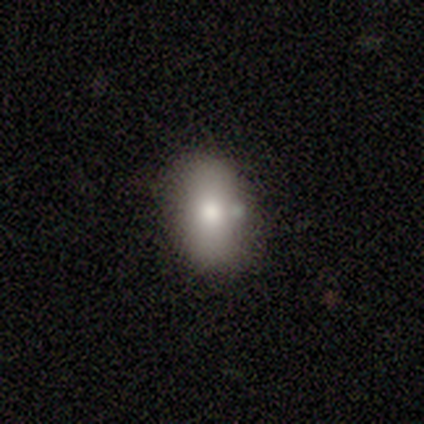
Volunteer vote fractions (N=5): Smooth or featured?
  - smooth: 100% *
  - featured or disk: 0%
  - star or artifact: 0%
How rounded?
  - in between: 80% *
  - round: 20%
  - cigar-shaped: 0%
Merging?
  - none: 80% *
  - major disturbance: 20%
  - minor disturbance: 0%
  - merger: 0%